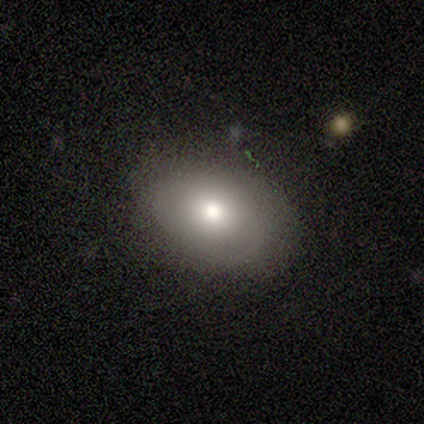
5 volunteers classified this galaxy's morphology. Smooth or featured?
  - smooth: 60% *
  - featured or disk: 20%
  - star or artifact: 20%
How rounded?
  - in between: 100% *
  - round: 0%
  - cigar-shaped: 0%
Merging?
  - minor disturbance: 50% *
  - none: 25%
  - major disturbance: 25%
  - merger: 0%